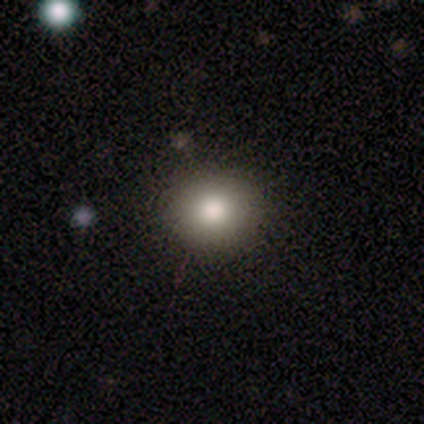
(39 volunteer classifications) Volunteers were most divided on "merging": none: 66%, minor disturbance: 3%, merger: 3%, major disturbance: 0%. More confident: smooth or featured — smooth (87%); how rounded — round (85%).